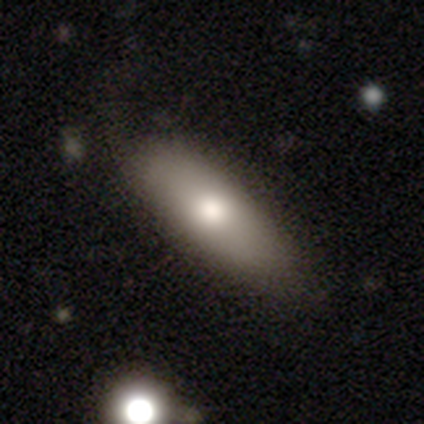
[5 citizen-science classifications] Smooth or featured?
  - smooth: 100% *
  - featured or disk: 0%
  - star or artifact: 0%
How rounded?
  - in between: 80% *
  - cigar-shaped: 20%
  - round: 0%
Merging?
  - none: 80% *
  - minor disturbance: 20%
  - major disturbance: 0%
  - merger: 0%